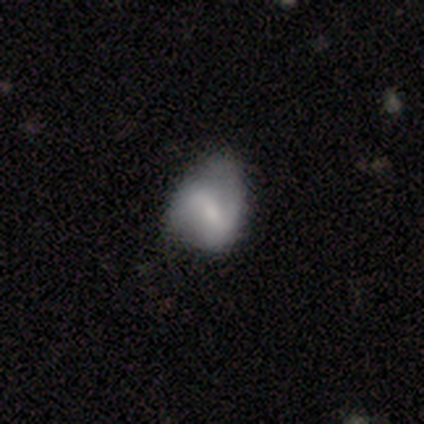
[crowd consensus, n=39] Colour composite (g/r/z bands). It shows a featured or disk galaxy (62%) with a weak bar (65%), 2 (65%) loose (76%) spiral arms (74%) and a moderate central bulge (43%). Merging: minor disturbance (46%).